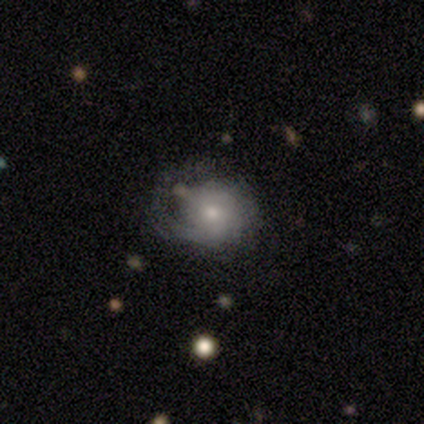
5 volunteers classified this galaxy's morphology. A featured or disk galaxy (80%) with no bar (100%), 1 (67%) tight (100%) spiral arms (100%) and a small central bulge (100%).

Vote fractions:
- Smooth or featured? featured or disk: 80% / smooth: 20% / star or artifact: 0%
- Edge-on disk? no: 75% / yes: 25%
- Bar? no: 100% / strong: 0% / weak: 0%
- Spiral arms? yes: 100% / no: 0%
- Spiral winding? tight: 100% / medium: 0% / loose: 0%
- Spiral arm count? 1: 67% / can't tell: 33% / 2: 0% / 3: 0% / 4: 0% / more than 4: 0%
- Bulge size? small: 100% / dominant: 0% / large: 0% / moderate: 0% / none: 0%
- Merging? none: 40% (tied) / major disturbance: 40% (tied) / minor disturbance: 20% / merger: 0%